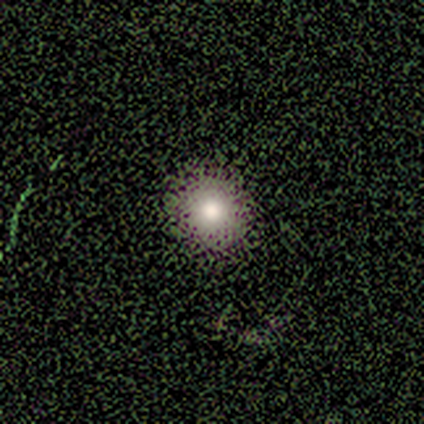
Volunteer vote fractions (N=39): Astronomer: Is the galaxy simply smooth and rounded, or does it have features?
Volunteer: smooth — 77%.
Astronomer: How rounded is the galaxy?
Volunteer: round — 100%.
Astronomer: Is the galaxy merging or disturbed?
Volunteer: none — 67%.